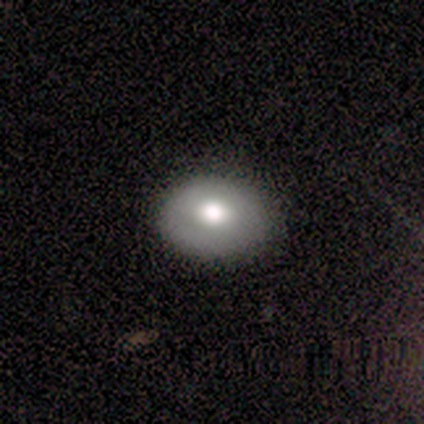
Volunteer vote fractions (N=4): Volunteers were most divided on "bulge size" (2-way tie): large: 50%, moderate: 50%, dominant: 0%, small: 0%, none: 0%; "merging" (2-way tie): none: 50%, minor disturbance: 50%, major disturbance: 0%, merger: 0%. More confident: bar — no (100%); spiral arms — no (100%); smooth or featured — featured or disk (75%); edge-on disk — no (67%).